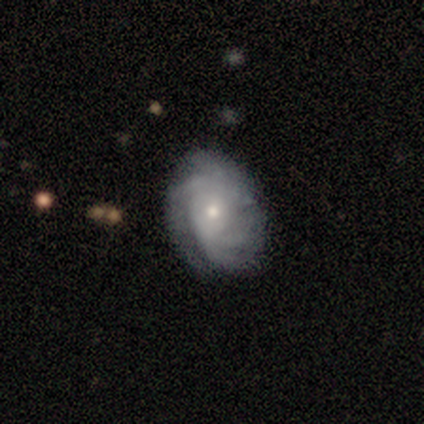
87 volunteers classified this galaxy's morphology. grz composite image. It shows a featured or disk galaxy (78%) with no bar (73%), tight (60%) spiral arms (94%) and a small central bulge (70%). Merging: none (70%).